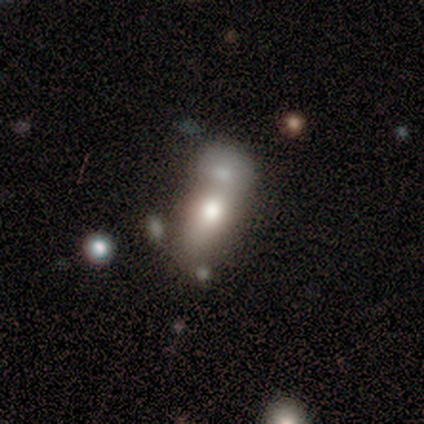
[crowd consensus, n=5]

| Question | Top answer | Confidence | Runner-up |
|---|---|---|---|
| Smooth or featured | smooth | 60% | featured or disk (40%) |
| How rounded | in between | 67% | round (33%) |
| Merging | merger | 60% | none (20%) |